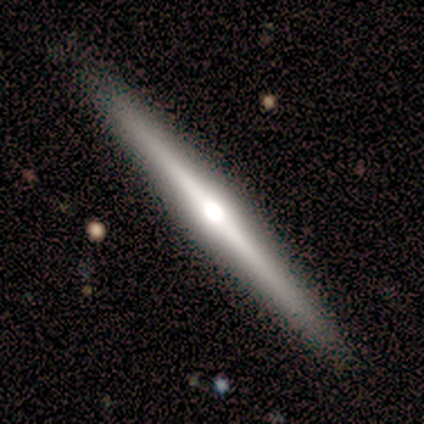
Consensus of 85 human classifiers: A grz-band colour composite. It shows a featured or disk galaxy (85%) viewed edge-on (100%) with a rounded central bulge (85%). Merging: none (93%).